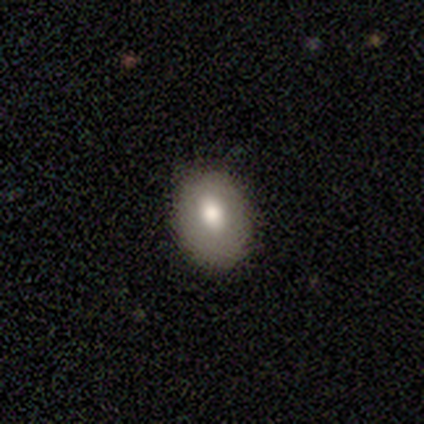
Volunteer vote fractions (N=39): This appears to be a smooth galaxy with no disk features (54%) that is in between round and cigar-shaped (90%). Merging: none (77%).